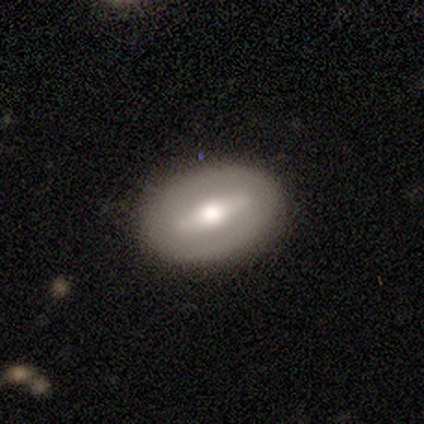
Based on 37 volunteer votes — smooth_or_featured: featured or disk (p=0.54) [alt: smooth p=0.46]
disk_edge_on: no (p=0.75) [alt: yes p=0.25]
bar: strong (p=0.73) [alt: weak p=0.20]
has_spiral_arms: no (p=0.93) [alt: yes p=0.07]
bulge_size: moderate (p=0.73) [alt: large p=0.13]
merging: none (p=0.76) [alt: minor disturbance p=0.19]